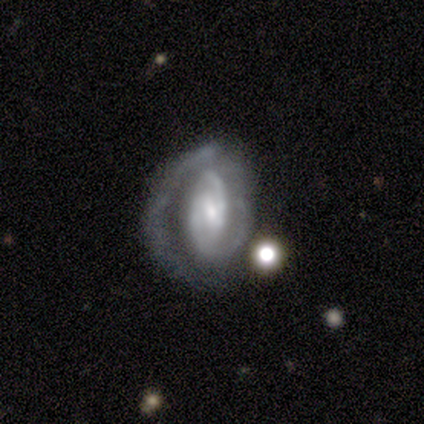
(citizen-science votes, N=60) This is clearly a featured or disk galaxy (82%). It is clearly not viewed edge-on (96%). Bar: possibly weak (51%). Spiral arm pattern: clearly yes (96%). Spiral arm count: likely 2 (62%). Spiral winding: possibly tight (58%). Central bulge: possibly moderate (47%, tied with small). Merging: marginally major disturbance (41%).